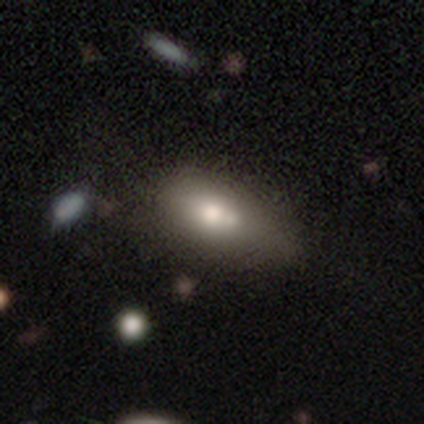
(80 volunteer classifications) Smooth or featured? 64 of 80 (80%) said smooth. How rounded? 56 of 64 (88%) said in between. Merging? 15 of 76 (20%, tied with merger) said minor disturbance.